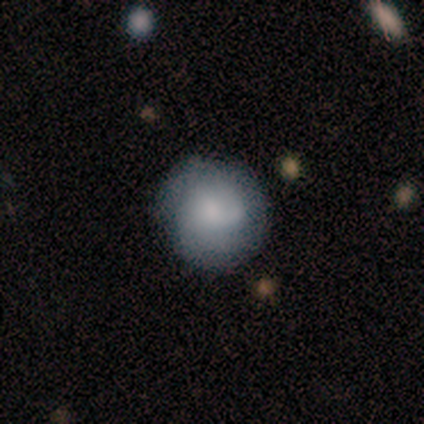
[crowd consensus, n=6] Overall: smooth (67%; featured or disk 33%). How rounded: round (75%). Merging: none (83%).